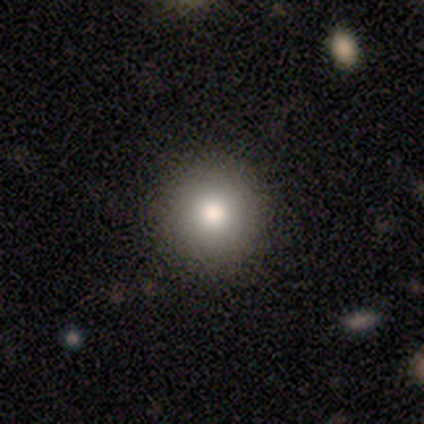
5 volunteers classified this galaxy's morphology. Volunteers were most divided on "merging": none: 80%, minor disturbance: 20%, major disturbance: 0%, merger: 0%. More confident: smooth or featured — smooth (100%); how rounded — round (100%).